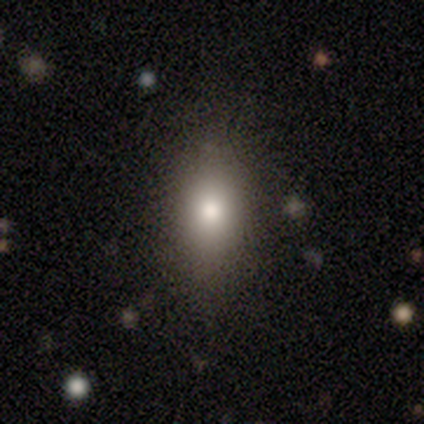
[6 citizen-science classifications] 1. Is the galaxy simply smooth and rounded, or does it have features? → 67% smooth, 33% featured or disk, 0% star or artifact.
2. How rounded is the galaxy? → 100% in between, 0% round, 0% cigar-shaped.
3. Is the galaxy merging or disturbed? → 83% none, 17% minor disturbance, 0% major disturbance, 0% merger.